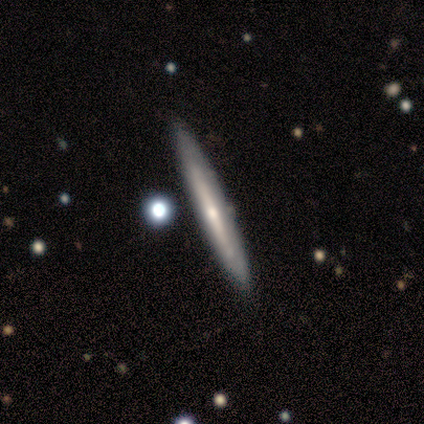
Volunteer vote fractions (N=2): This appears to be a smooth galaxy with no disk features (50%, tied with featured or disk) that is cigar-shaped (100%). Merging: none (100%).